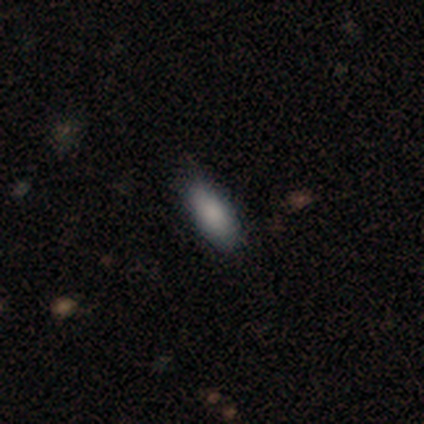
Smooth or featured: smooth — 100%
How rounded: in between — 80% (cigar-shaped — 20%)
Merging: none — 80% (minor disturbance — 20%)